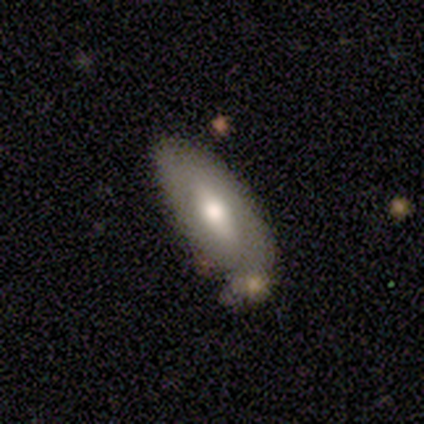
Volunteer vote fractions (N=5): Q: Smooth or featured?
A: featured or disk (60%); runner-up: smooth (40%)
Q: Edge-on disk?
A: no (100%)
Q: Bar?
A: no (67%); runner-up: strong (33%)
Q: Spiral arms?
A: no (100%)
Q: Bulge size?
A: moderate (100%)
Q: Merging?
A: minor disturbance (80%); runner-up: none (20%)